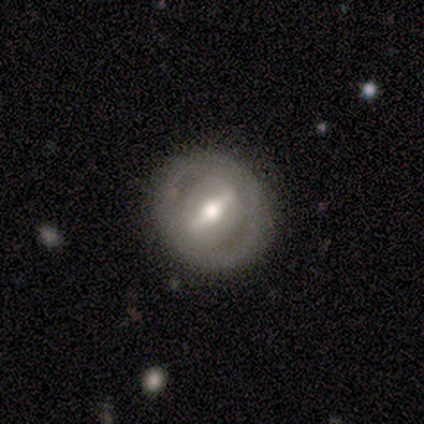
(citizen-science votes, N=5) This appears to be a featured or disk galaxy (80%) with a strong bar (50%, tied with weak), no spiral arms (100%) and a moderate central bulge (75%). Merging: none (80%).